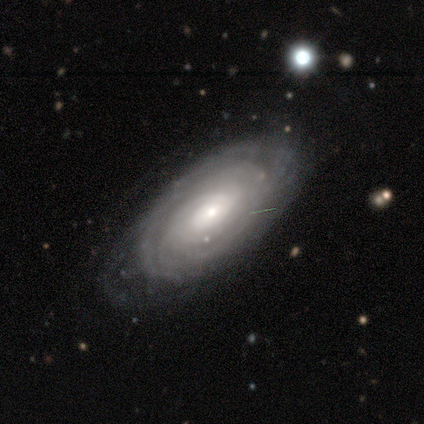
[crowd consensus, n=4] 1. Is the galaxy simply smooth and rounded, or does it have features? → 75% featured or disk, 25% smooth, 0% star or artifact.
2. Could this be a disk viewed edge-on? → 100% no, 0% yes.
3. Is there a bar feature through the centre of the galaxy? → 67% no, 33% weak, 0% strong.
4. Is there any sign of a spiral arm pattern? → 67% yes, 33% no.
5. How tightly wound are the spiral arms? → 100% tight, 0% medium, 0% loose.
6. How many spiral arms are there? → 100% more than 4, 0% 1, 0% 2, 0% 3, 0% 4, 0% can't tell.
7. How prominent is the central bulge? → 67% small, 33% moderate, 0% dominant, 0% large, 0% none.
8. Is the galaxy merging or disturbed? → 50% none, 25% minor disturbance, 25% major disturbance, 0% merger.